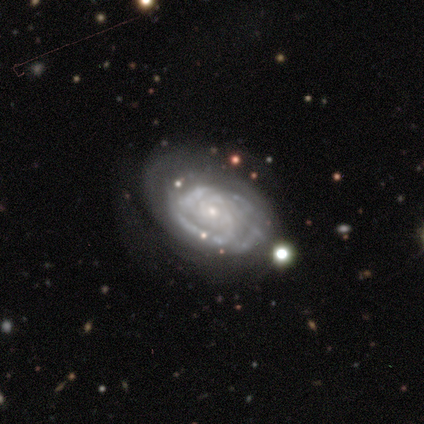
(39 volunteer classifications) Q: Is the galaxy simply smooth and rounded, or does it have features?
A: featured or disk — 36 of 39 (92%).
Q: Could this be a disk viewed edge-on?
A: no — 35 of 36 (97%).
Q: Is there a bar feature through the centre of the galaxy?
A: no — 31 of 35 (89%).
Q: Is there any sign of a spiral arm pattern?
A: yes — 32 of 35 (91%).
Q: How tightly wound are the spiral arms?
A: tight — 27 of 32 (84%).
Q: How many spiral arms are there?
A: can't tell — 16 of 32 (50%).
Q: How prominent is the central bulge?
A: small — 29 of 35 (83%).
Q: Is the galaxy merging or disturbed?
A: none — 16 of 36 (44%).